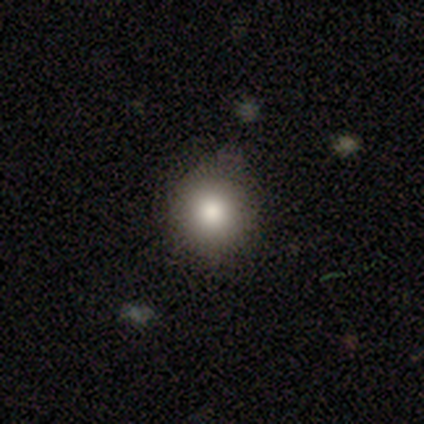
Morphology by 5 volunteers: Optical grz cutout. It shows a smooth galaxy with no disk features (60%) that is round (100%). Merging: none (100%).